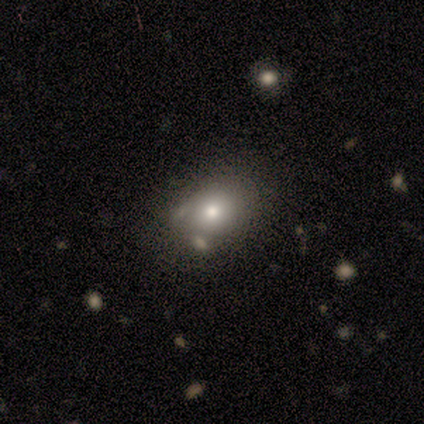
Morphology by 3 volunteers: Q: Smooth or featured?
A: featured or disk (67%); runner-up: star or artifact (33%)
Q: Edge-on disk?
A: no (100%)
Q: Bar?
A: no (100%)
Q: Spiral arms?
A: no (100%)
Q: Bulge size?
A: large (50%); tied with: moderate (50%)
Q: Merging?
A: none (100%)